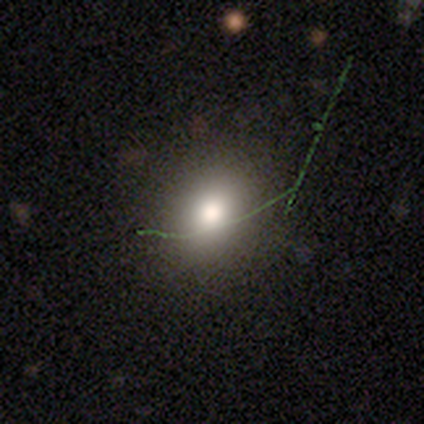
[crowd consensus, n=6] A smooth galaxy with no disk features (83%) that is in between round and cigar-shaped (60%).

Vote fractions:
- Smooth or featured? smooth: 83% / featured or disk: 17% / star or artifact: 0%
- How rounded? in between: 60% / round: 40% / cigar-shaped: 0%
- Merging? none: 100% / minor disturbance: 0% / major disturbance: 0% / merger: 0%